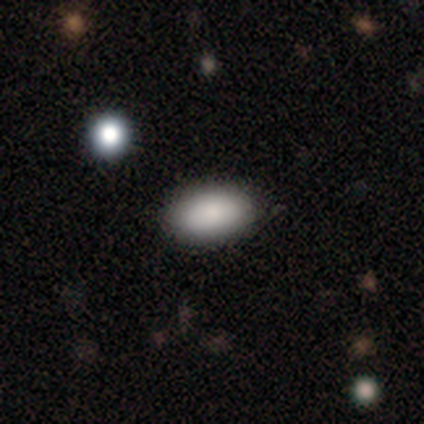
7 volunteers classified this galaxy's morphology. Smooth or featured: smooth — 100%
How rounded: in between — 86% (cigar-shaped — 14%)
Merging: none — 71% (minor disturbance — 29%)